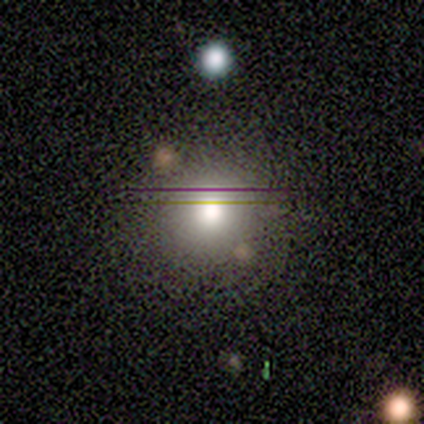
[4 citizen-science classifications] A smooth galaxy with no disk features (75%) that is round (67%).

Vote fractions:
- Smooth or featured? smooth: 75% / featured or disk: 25% / star or artifact: 0%
- How rounded? round: 67% / in between: 33% / cigar-shaped: 0%
- Merging? none: 75% / minor disturbance: 25% / major disturbance: 0% / merger: 0%